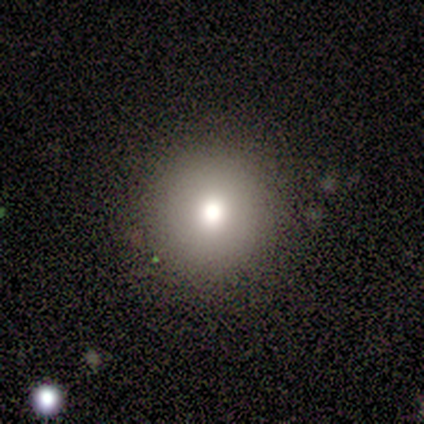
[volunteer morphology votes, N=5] Overall: smooth (40%, tied with featured or disk). How rounded: round (100%). Merging: none (100%).